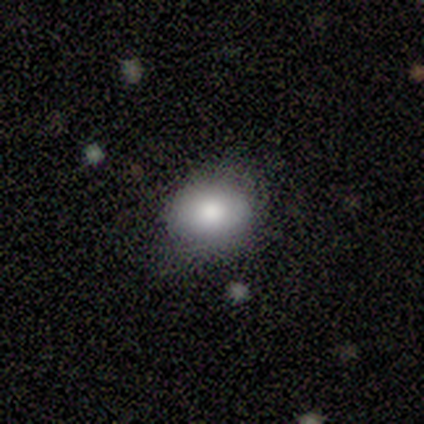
Q: Smooth or featured?
A: smooth (60%); runner-up: featured or disk (20%)
Q: How rounded?
A: round (67%); runner-up: in between (33%)
Q: Merging?
A: none (75%); runner-up: major disturbance (25%)